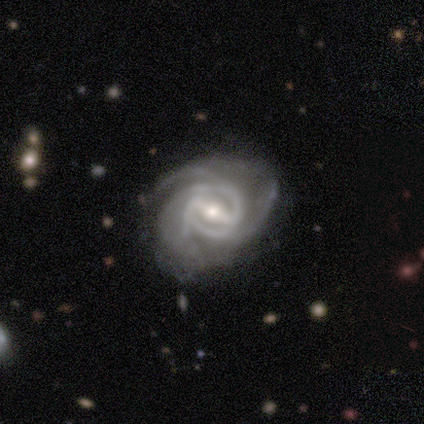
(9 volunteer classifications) This is clearly a featured or disk galaxy (100%). It is clearly not viewed edge-on (100%). Bar: marginally strong (44%, tied with weak). Spiral arm pattern: clearly yes (100%). Spiral arm count: marginally 2 (44%). Spiral winding: likely tight (78%). Central bulge: possibly moderate (56%). Merging: likely none (78%).